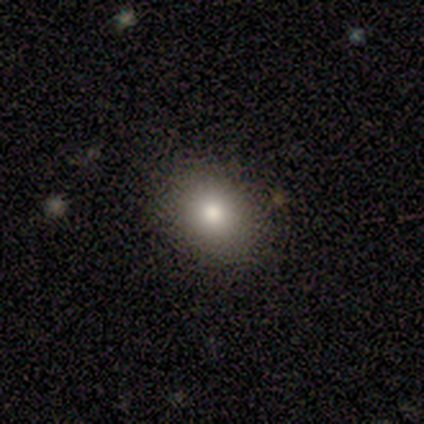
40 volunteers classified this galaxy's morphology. Volunteers were most divided on "how rounded": round: 53%, in between: 47%, cigar-shaped: 0%. More confident: merging — none (92%); smooth or featured — smooth (80%).